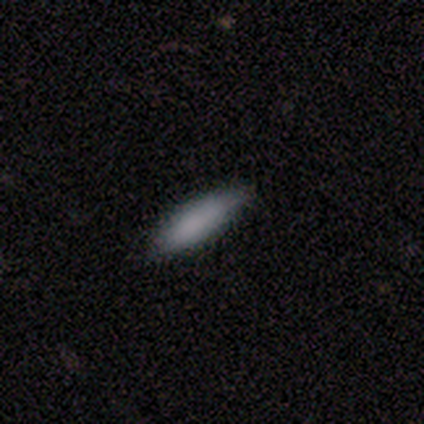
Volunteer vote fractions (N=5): smooth-or-featured: smooth: 80% | star or artifact: 20% | featured or disk: 0%
  how-rounded: cigar-shaped: 75% | in between: 25% | round: 0%
  merging: minor disturbance: 75% | none: 25% | major disturbance: 0% | merger: 0%